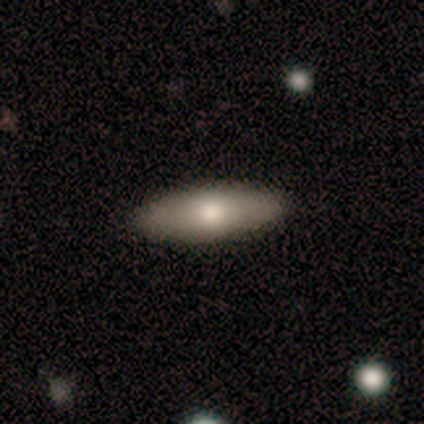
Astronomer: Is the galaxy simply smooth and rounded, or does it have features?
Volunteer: smooth — 71%.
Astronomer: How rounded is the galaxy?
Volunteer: in between — 60% (runner-up: cigar-shaped, 40%).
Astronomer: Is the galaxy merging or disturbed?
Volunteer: none — 100%.